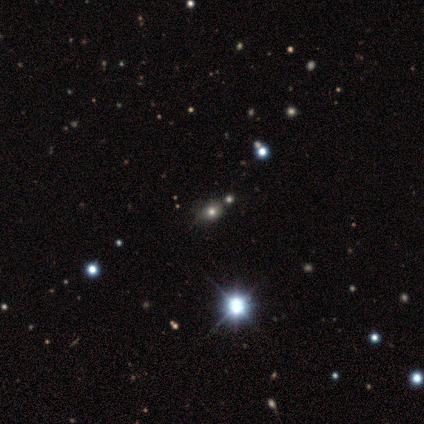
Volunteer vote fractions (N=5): Smooth or featured: smooth — 60% (featured or disk — 20%)
How rounded: in between — 100%
Merging: none — 50% (tied with minor disturbance — 50%)